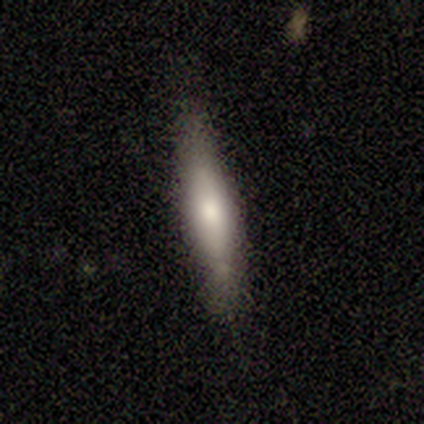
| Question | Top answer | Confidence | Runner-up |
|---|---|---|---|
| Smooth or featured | smooth | 80% | featured or disk (20%) |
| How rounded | cigar-shaped | 100% | — |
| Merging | none | 100% | — |